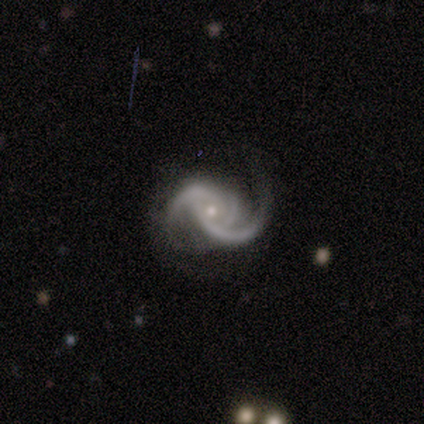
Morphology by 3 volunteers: Smooth or featured? 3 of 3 (100%) said featured or disk. Edge-on disk? 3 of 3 (100%) said no. Bar? 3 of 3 (100%) said no. Spiral arms? 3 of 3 (100%) said yes. Spiral winding? 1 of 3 (33%, tied with medium and loose) said tight. Spiral arm count? 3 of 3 (100%) said 2. Bulge size? 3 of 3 (100%) said small. Merging? 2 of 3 (67%) said none.